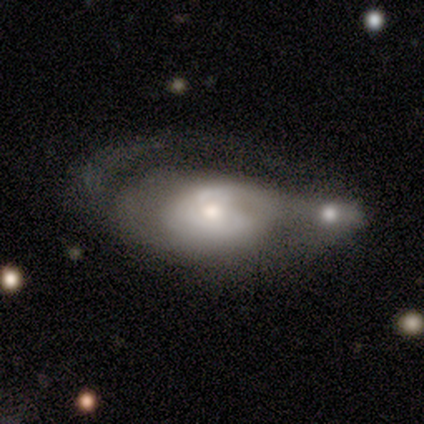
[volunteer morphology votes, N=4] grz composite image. It shows a featured or disk galaxy (100%) with a weak bar (67%), medium (100%) spiral arms (67%) and a moderate central bulge (67%). Merging: merger (50%).